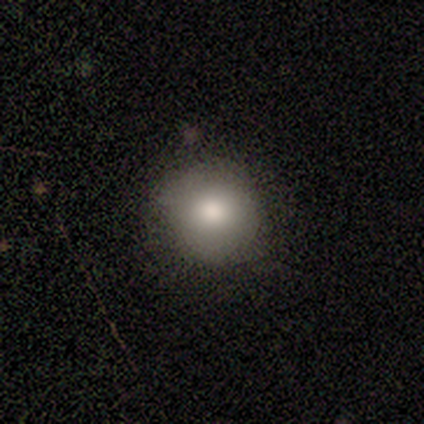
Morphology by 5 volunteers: smooth_or_featured: smooth (p=0.80) [alt: featured or disk p=0.20]
how_rounded: round (p=1.00)
merging: none (p=0.80) [alt: minor disturbance p=0.20]